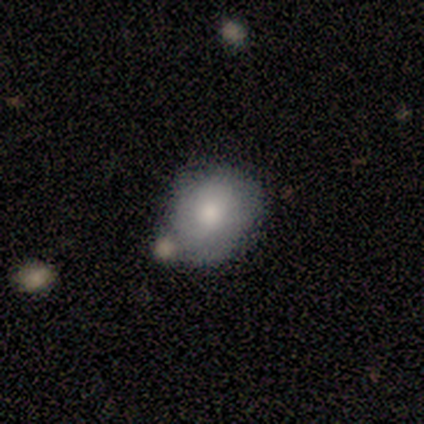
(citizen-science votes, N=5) Smooth or featured? smooth (80%)
How rounded? round (75%)
Merging? none (60%)